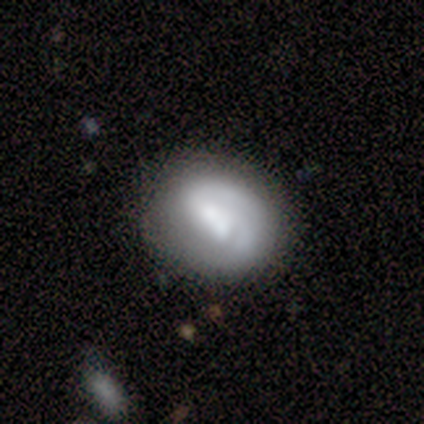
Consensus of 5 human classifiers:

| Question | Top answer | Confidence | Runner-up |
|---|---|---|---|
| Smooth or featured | smooth | 60% | featured or disk (40%) |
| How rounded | in between | 67% | round (33%) |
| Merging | minor disturbance | 60% | none (40%) |